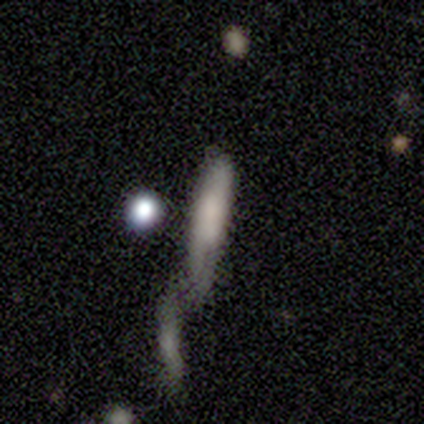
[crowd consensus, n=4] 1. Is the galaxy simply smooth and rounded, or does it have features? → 50% smooth, 25% featured or disk, 25% star or artifact.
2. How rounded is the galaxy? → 100% cigar-shaped, 0% round, 0% in between.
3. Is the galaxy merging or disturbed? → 67% minor disturbance, 33% none, 0% major disturbance, 0% merger.